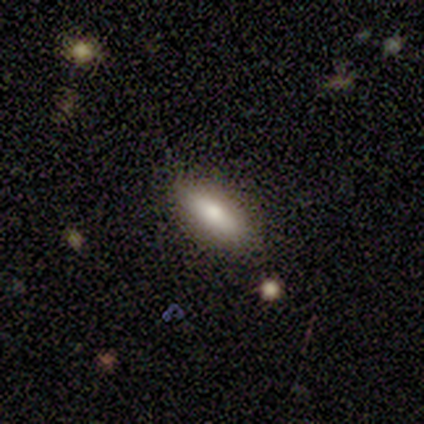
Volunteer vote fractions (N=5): Smooth or featured? smooth (80%)
How rounded? in between (75%)
Merging? none (100%)